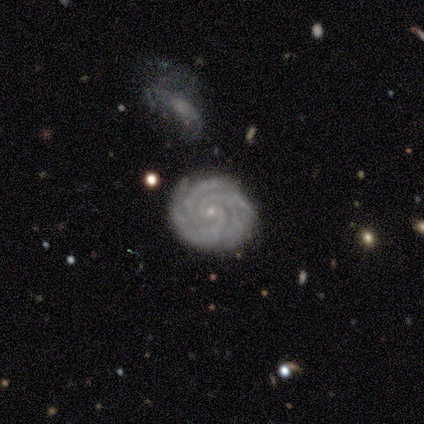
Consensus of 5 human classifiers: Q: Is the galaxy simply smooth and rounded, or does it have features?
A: featured or disk — 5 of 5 (100%).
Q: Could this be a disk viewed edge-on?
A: no — 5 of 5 (100%).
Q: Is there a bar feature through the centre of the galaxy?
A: no — 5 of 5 (100%).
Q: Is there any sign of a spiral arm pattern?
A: yes — 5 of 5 (100%).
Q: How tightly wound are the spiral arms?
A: tight — 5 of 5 (100%).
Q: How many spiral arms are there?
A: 4 — 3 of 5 (60%).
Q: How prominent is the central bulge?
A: small — 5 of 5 (100%).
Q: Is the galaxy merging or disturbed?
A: none — 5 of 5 (100%).